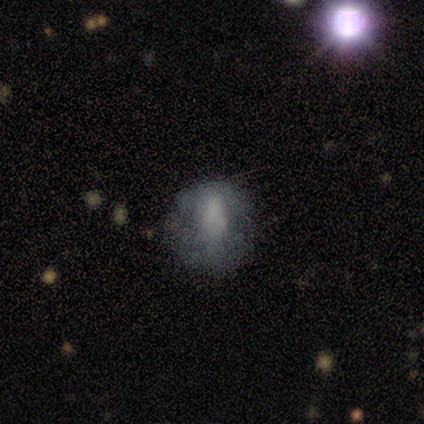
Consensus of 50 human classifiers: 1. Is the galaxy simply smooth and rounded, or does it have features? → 52% smooth, 40% featured or disk, 8% star or artifact.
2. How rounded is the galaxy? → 58% round, 42% in between, 0% cigar-shaped.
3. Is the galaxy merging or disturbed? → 46% none, 33% minor disturbance, 15% major disturbance, 7% merger.